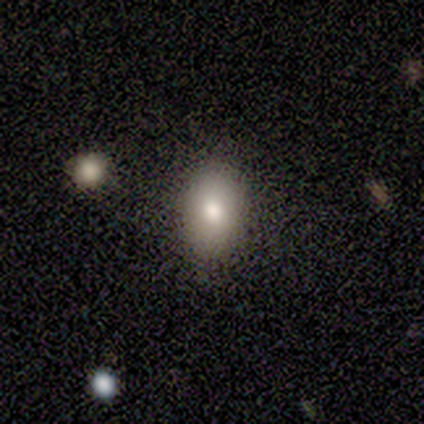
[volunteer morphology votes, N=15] Volunteers were most divided on "how rounded": in between: 75%, round: 25%, cigar-shaped: 0%. More confident: smooth or featured — smooth (80%); merging — none (80%).